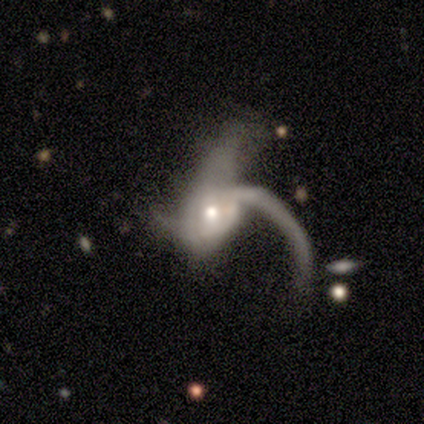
smooth-or-featured: featured or disk: 79% | smooth: 14% | star or artifact: 7%
  disk-edge-on: no: 91% | yes: 9%
    bar: no: 74% | strong: 13% | weak: 13%
    has-spiral-arms: yes: 74% | no: 26%
      spiral-winding: loose: 96% | tight: 4% | medium: 0%
      spiral-arm-count: 1: 35% | 3: 30% | 2: 22% | can't tell: 13% | 4: 0% | more than 4: 0%
    bulge-size: moderate: 65% | small: 26% | large: 10% | dominant: 0% | none: 0%
  merging: major disturbance: 70% | merger: 18% | none: 8% | minor disturbance: 5%